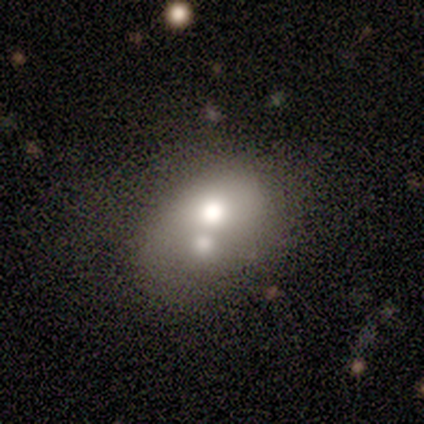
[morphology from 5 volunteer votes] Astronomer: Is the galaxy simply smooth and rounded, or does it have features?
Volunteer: smooth — 100%.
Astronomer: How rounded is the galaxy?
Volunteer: in between — 80%.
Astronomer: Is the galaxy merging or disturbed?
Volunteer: none — 60% (runner-up: merger, 40%).